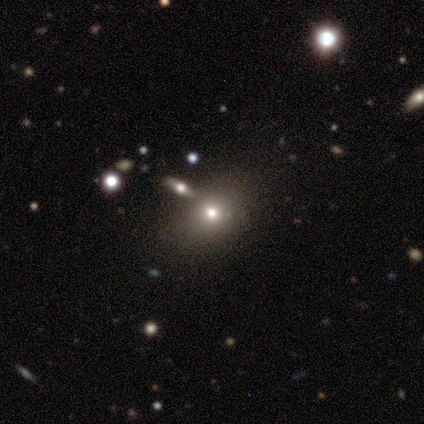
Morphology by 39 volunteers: Q: Smooth or featured?
A: smooth (64%); runner-up: star or artifact (28%)
Q: How rounded?
A: in between (60%); runner-up: round (36%)
Q: Merging?
A: none (79%); runner-up: merger (11%)